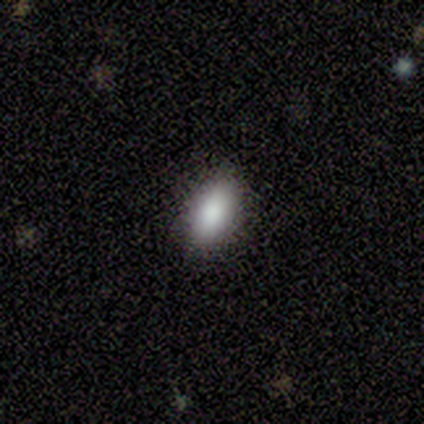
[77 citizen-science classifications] This appears to be a smooth galaxy with no disk features (88%) that is in between round and cigar-shaped (84%). Merging: none (49%).